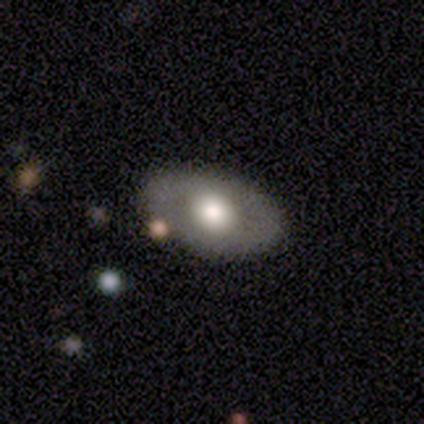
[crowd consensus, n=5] Overall: smooth (60%; featured or disk 40%). How rounded: in between (100%). Merging: none (100%).